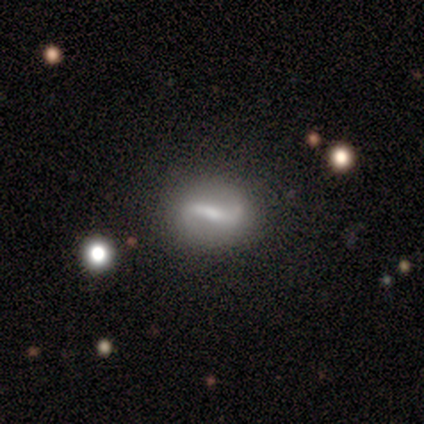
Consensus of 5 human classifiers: featured or disk 100%, smooth 0%, star or artifact 0%. Down the decision tree: edge-on disk — no (100%); bar — strong (100%); spiral arms — yes (100%); spiral arm count — 2 (100%); spiral winding — loose (100%); bulge size — moderate (60%); merging — none (100%).